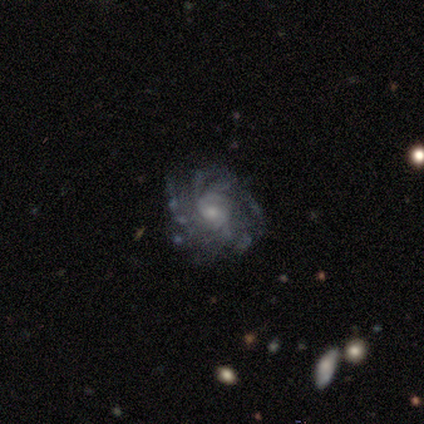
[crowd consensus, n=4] A featured or disk galaxy (100%) with a weak bar (50%, tied with no), medium (50%) spiral arms (100%) and a moderate central bulge (50%, tied with small).

Vote fractions:
- Smooth or featured? featured or disk: 100% / smooth: 0% / star or artifact: 0%
- Edge-on disk? no: 100% / yes: 0%
- Bar? weak: 50% (tied) / no: 50% (tied) / strong: 0%
- Spiral arms? yes: 100% / no: 0%
- Spiral winding? medium: 50% / tight: 25% / loose: 25%
- Spiral arm count? can't tell: 50% / 1: 25% / 4: 25% / 2: 0% / 3: 0% / more than 4: 0%
- Bulge size? moderate: 50% (tied) / small: 50% (tied) / dominant: 0% / large: 0% / none: 0%
- Merging? minor disturbance: 50% / none: 25% / major disturbance: 25% / merger: 0%